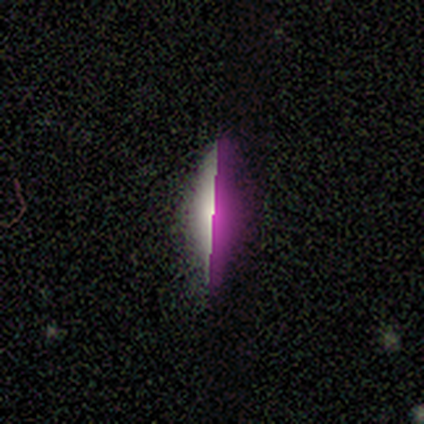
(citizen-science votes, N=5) star or artifact 60%, smooth 40%, featured or disk 0%.